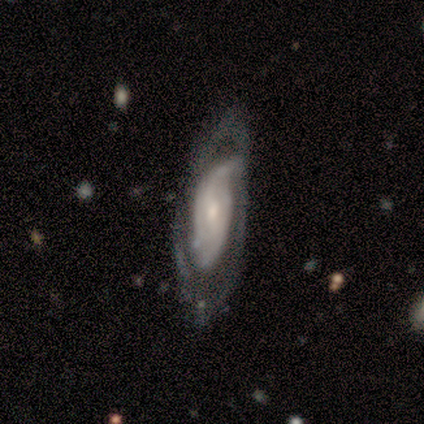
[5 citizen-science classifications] This appears to be a featured or disk galaxy (80%) with a weak bar (50%, tied with no), 1 (33%, tied with 2 and can't tell) loose (100%) spiral arms (75%) and a small central bulge (75%). Merging: minor disturbance (60%).